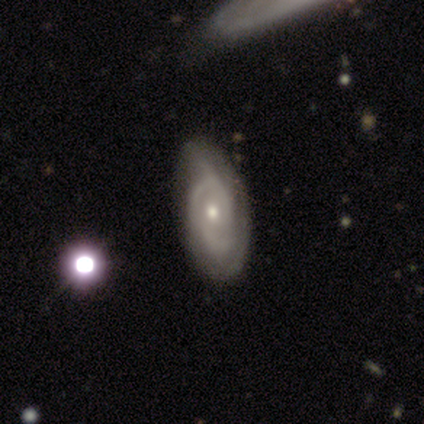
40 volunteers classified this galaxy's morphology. featured or disk 80%, smooth 10%, star or artifact 10%. Down the decision tree: edge-on disk — no (100%); bar — no (91%); spiral arms — yes (84%); spiral arm count — 2 (41%); spiral winding — medium (52%); bulge size — small (50%); merging — none (67%).